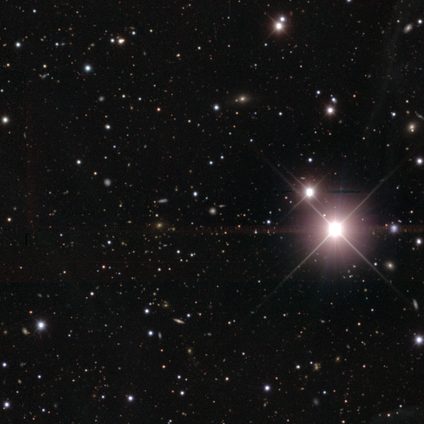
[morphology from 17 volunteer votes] A star or artifact, not a galaxy (82%).

Vote fractions:
- Smooth or featured? star or artifact: 82% / smooth: 12% / featured or disk: 6%